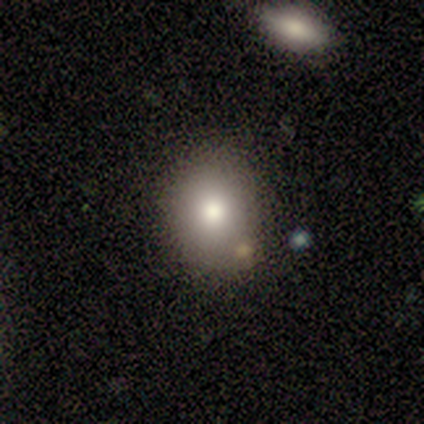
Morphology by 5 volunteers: Smooth or featured: featured or disk — 60% (smooth — 40%)
Edge-on disk: no — 100%
Bar: no — 100%
Spiral arms: no — 100%
Bulge size: moderate — 67% (large — 33%)
Merging: merger — 60% (none — 40%)